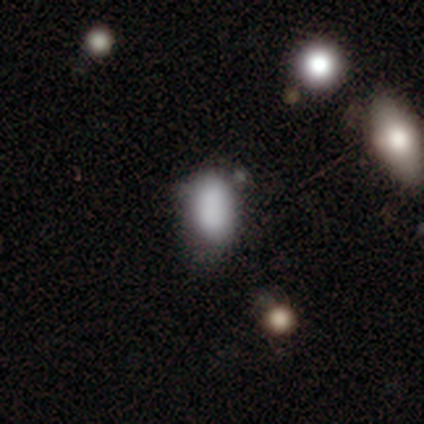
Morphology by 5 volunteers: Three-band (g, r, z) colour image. It shows a smooth galaxy with no disk features (80%) that is in between round and cigar-shaped (75%). Merging: none (50%, tied with merger).